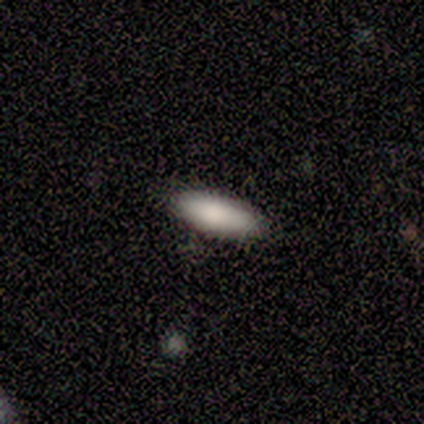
smooth_or_featured: smooth (p=1.00)
how_rounded: in between (p=0.75) [alt: cigar-shaped p=0.25]
merging: none (p=1.00)